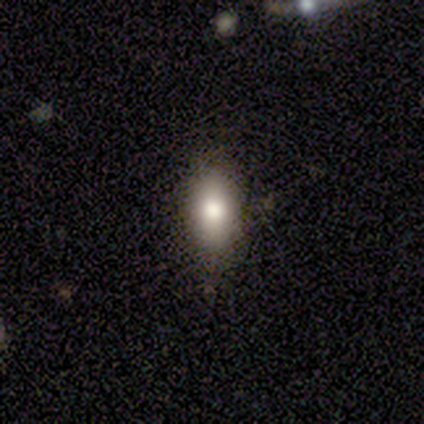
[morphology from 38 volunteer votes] This is likely a smooth galaxy (76%). How rounded: clearly in between (83%). Merging: clearly none (83%).